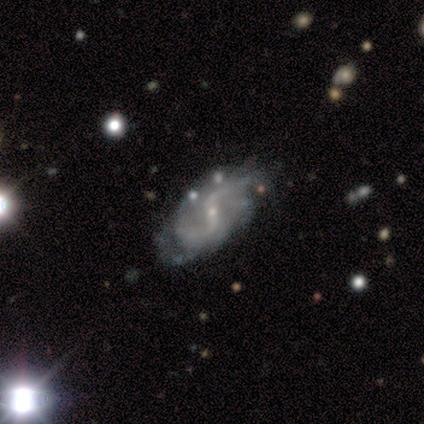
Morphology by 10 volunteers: smooth-or-featured: featured or disk: 100% | smooth: 0% | star or artifact: 0%
  disk-edge-on: no: 100% | yes: 0%
    bar: weak: 50% | no: 30% | strong: 20%
    has-spiral-arms: yes: 90% | no: 10%
      spiral-winding: loose: 56% | medium: 44% | tight: 0%
      spiral-arm-count: 2: 89% | can't tell: 11% | 1: 0% | 3: 0% | 4: 0% | more than 4: 0%
    bulge-size: small: 80% | moderate: 20% | dominant: 0% | large: 0% | none: 0%
  merging: minor disturbance: 50% | none: 40% | major disturbance: 10% | merger: 0%